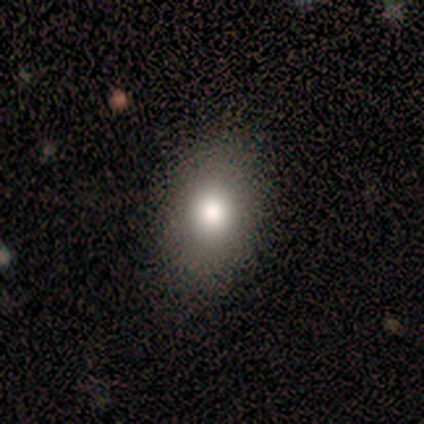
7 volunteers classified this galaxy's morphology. Smooth or featured: smooth — 86% (featured or disk — 14%)
How rounded: in between — 83% (round — 17%)
Merging: none — 100%